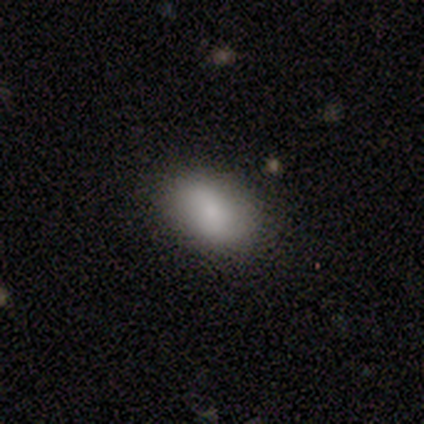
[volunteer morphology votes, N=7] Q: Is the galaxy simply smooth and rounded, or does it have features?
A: smooth — 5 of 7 (71%).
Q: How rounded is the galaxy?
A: in between — 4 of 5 (80%).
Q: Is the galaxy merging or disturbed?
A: none — 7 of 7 (100%).